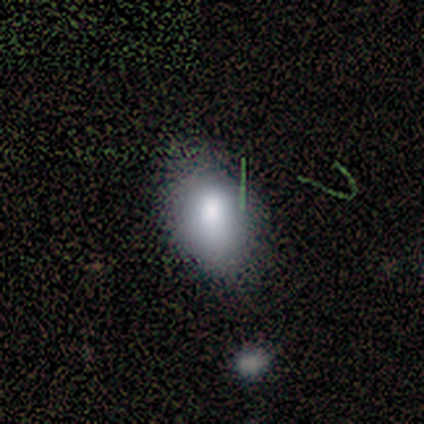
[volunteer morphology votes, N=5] A smooth galaxy with no disk features (80%) that is in between round and cigar-shaped (100%).

Vote fractions:
- Smooth or featured? smooth: 80% / featured or disk: 20% / star or artifact: 0%
- How rounded? in between: 100% / round: 0% / cigar-shaped: 0%
- Merging? none: 60% / minor disturbance: 40% / major disturbance: 0% / merger: 0%